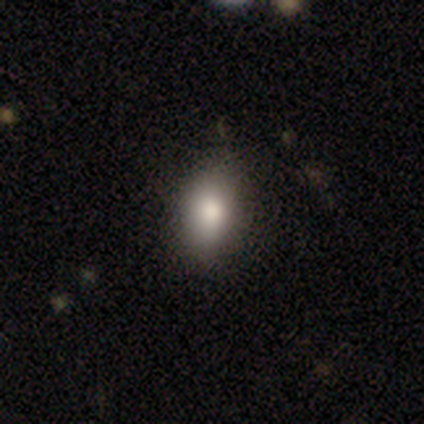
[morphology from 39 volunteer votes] This is likely a smooth galaxy (79%). How rounded: clearly in between (81%). Merging: clearly none (81%).